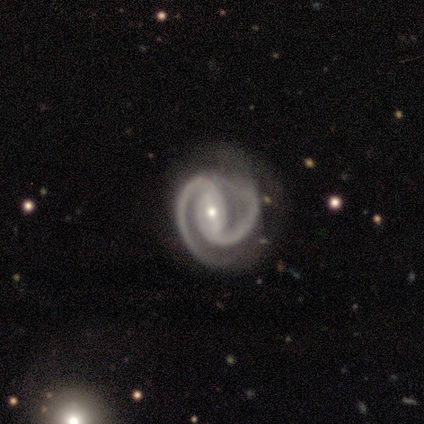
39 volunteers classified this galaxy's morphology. type=featured or disk (95%); edge-on=no (97%); bar=strong (47%); spiral arms=yes (97%); winding=tight (49%); arm count=2 (100%); bulge=small (50%); merging=none (55%).